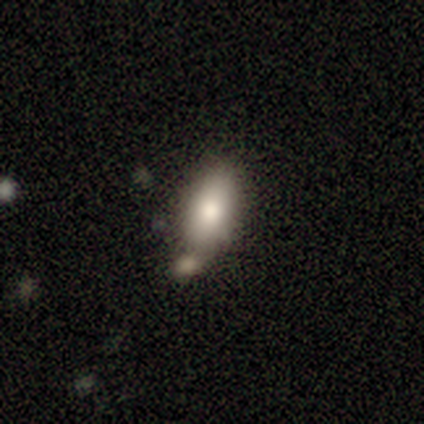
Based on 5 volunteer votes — smooth_or_featured: smooth (p=1.00)
how_rounded: in between (p=1.00)
merging: merger (p=0.60) [alt: none p=0.40]